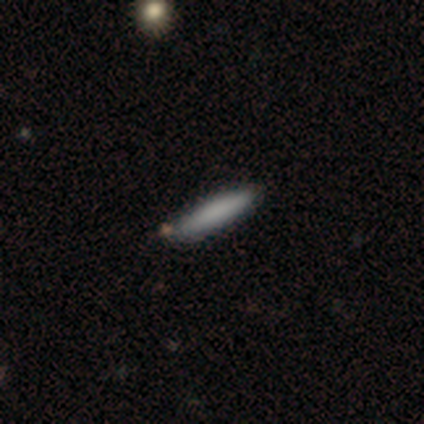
This appears to be a smooth galaxy with no disk features (77%) that is cigar-shaped (100%). Merging: none (92%).